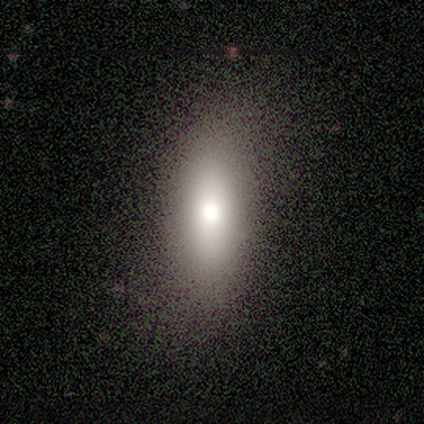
smooth-or-featured: smooth: 76% | featured or disk: 16% | star or artifact: 8%
  how-rounded: in between: 57% | cigar-shaped: 43% | round: 0%
  merging: none: 85% | minor disturbance: 15% | major disturbance: 0% | merger: 0%